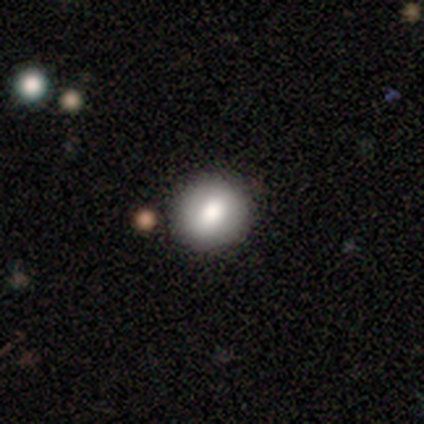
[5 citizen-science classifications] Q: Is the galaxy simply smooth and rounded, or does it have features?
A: smooth — 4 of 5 (80%).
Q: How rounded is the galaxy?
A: round — 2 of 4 (50%, tied with in between).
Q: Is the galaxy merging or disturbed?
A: none — 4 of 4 (100%).